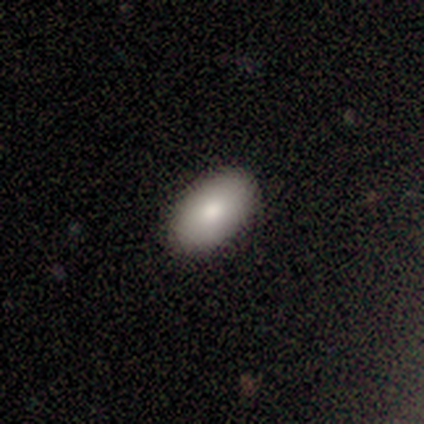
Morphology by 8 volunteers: This is clearly a smooth galaxy (100%). How rounded: clearly in between (88%). Merging: clearly none (88%).